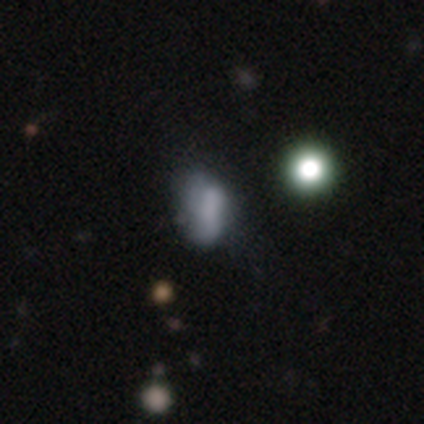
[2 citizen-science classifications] Smooth or featured? 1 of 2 (50%, tied with featured or disk) said smooth. How rounded? 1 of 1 (100%) said in between. Merging? 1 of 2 (50%, tied with major disturbance) said minor disturbance.